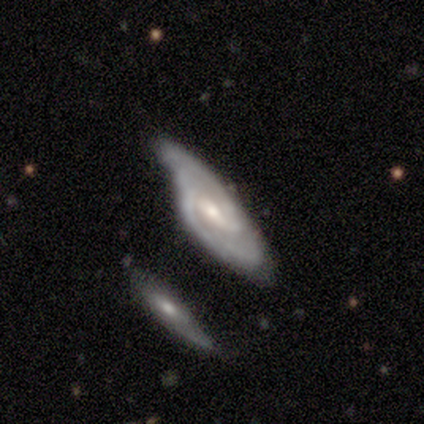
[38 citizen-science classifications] Q: Smooth or featured?
A: featured or disk (84%); runner-up: smooth (8%)
Q: Edge-on disk?
A: no (100%)
Q: Bar?
A: weak (47%); runner-up: no (28%)
Q: Spiral arms?
A: yes (88%); runner-up: no (12%)
Q: Spiral winding?
A: medium (57%); runner-up: tight (39%)
Q: Spiral arm count?
A: 2 (68%); runner-up: can't tell (21%)
Q: Bulge size?
A: moderate (62%); runner-up: small (28%)
Q: Merging?
A: none (37%); tied with: minor disturbance (37%)